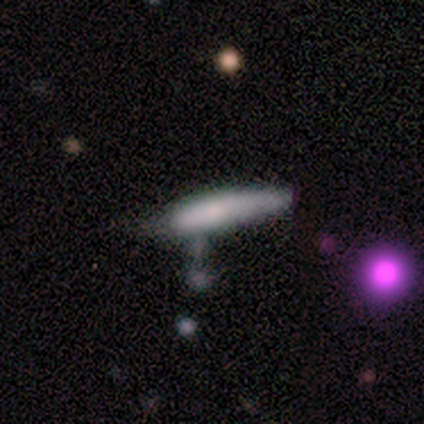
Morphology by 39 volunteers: type=smooth (82%); roundness=cigar-shaped (81%); merging=minor disturbance (46%).